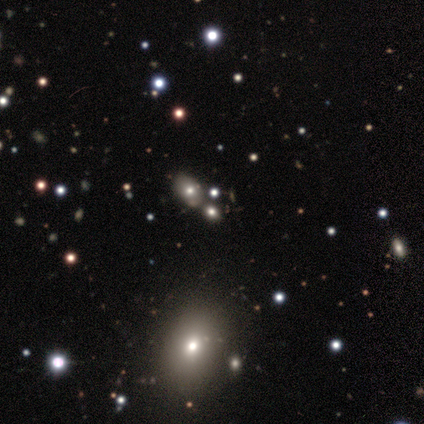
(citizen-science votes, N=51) Smooth or featured? 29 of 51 (57%) said smooth. How rounded? 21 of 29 (72%) said in between. Merging? 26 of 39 (67%) said none.